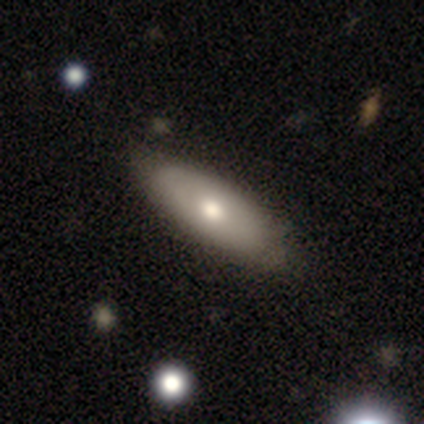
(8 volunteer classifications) Q: Smooth or featured?
A: smooth (62%); runner-up: featured or disk (38%)
Q: How rounded?
A: in between (80%); runner-up: cigar-shaped (20%)
Q: Merging?
A: none (75%); runner-up: minor disturbance (25%)